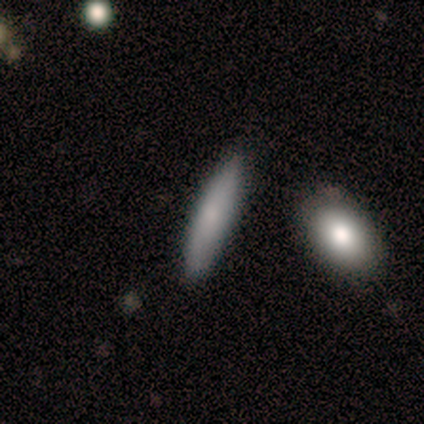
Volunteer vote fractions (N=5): A smooth galaxy with no disk features (60%) that is cigar-shaped (67%).

Vote fractions:
- Smooth or featured? smooth: 60% / featured or disk: 20% / star or artifact: 20%
- How rounded? cigar-shaped: 67% / in between: 33% / round: 0%
- Merging? none: 75% / minor disturbance: 25% / major disturbance: 0% / merger: 0%